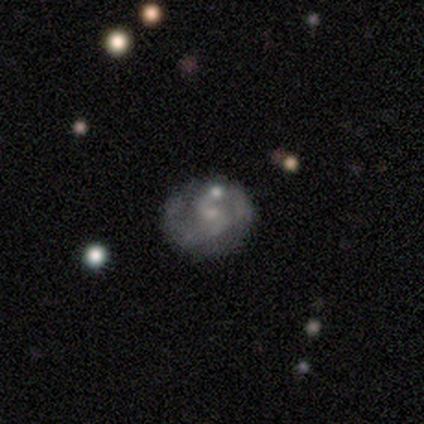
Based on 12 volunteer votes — This appears to be a featured or disk galaxy (83%) with a weak bar (60%), 2 (89%) tight (44%) spiral arms (90%) and a small central bulge (60%). Merging: none (73%).